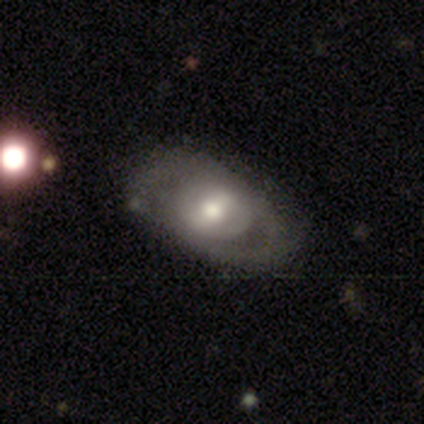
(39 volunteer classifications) smooth-or-featured: featured or disk: 72% | smooth: 28% | star or artifact: 0%
  disk-edge-on: no: 96% | yes: 4%
    bar: no: 41% | strong: 30% | weak: 30%
    has-spiral-arms: no: 52% | yes: 48%
    bulge-size: moderate: 63% | large: 26% | small: 11% | dominant: 0% | none: 0%
  merging: none: 67% | minor disturbance: 23% | major disturbance: 10% | merger: 0%